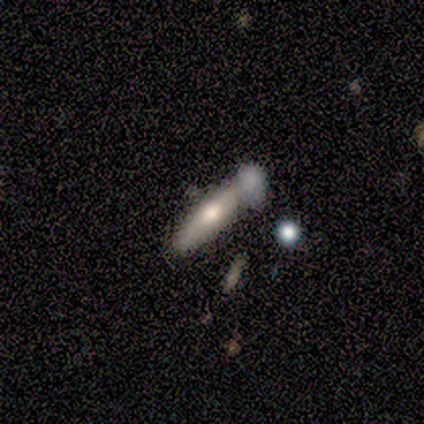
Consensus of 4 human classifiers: A smooth galaxy with no disk features (75%) that is in between round and cigar-shaped (67%). Merging: none (75%).